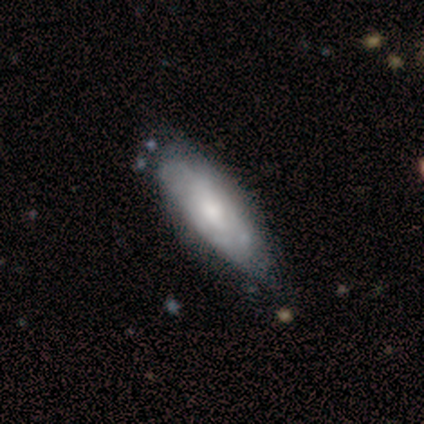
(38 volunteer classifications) Volunteers were most divided on "smooth or featured": smooth: 50%, featured or disk: 47%, star or artifact: 3%. More confident: merging — none (73%); how rounded — in between (53%).